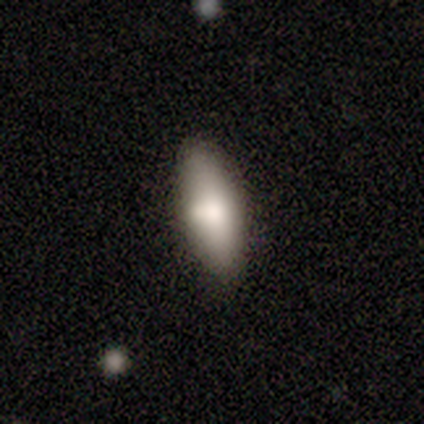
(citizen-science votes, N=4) Smooth or featured? 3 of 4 (75%) said smooth. How rounded? 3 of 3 (100%) said in between. Merging? 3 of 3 (100%) said none.